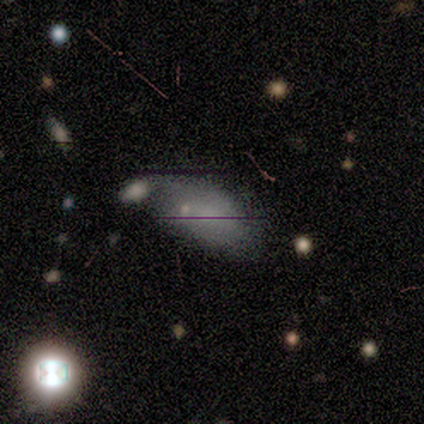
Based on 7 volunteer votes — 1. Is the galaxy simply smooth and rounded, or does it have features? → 57% smooth, 43% featured or disk, 0% star or artifact.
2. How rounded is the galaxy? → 100% in between, 0% round, 0% cigar-shaped.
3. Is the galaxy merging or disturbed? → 57% none, 29% minor disturbance, 14% merger, 0% major disturbance.